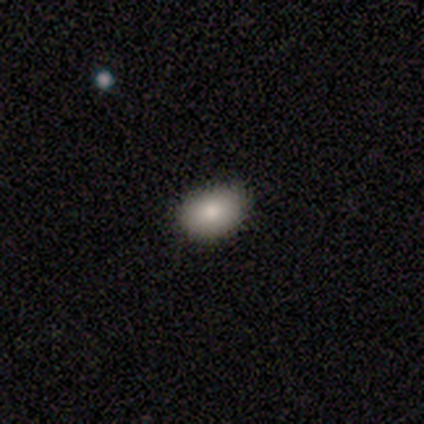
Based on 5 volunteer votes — This appears to be a smooth galaxy with no disk features (100%) that is in between round and cigar-shaped (100%). Merging: none (100%).